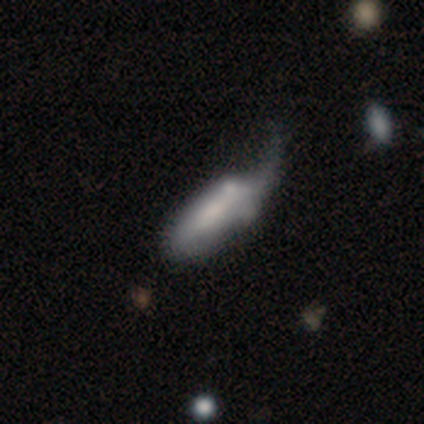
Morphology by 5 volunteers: Overall: smooth (40%, tied with featured or disk). How rounded: cigar-shaped (100%). Merging: none (50%, tied with major disturbance).